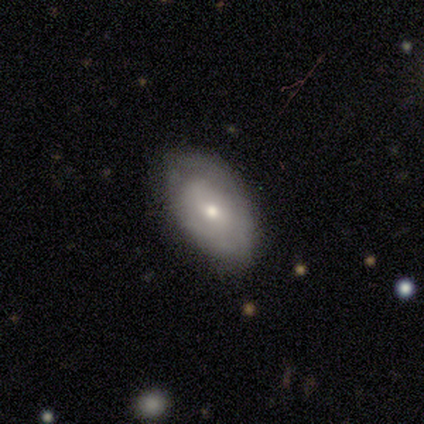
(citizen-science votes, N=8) featured or disk 62%, smooth 38%, star or artifact 0%. Down the decision tree: edge-on disk — no (100%); bar — no (60%); spiral arms — no (100%); bulge size — small (80%); merging — none (75%).